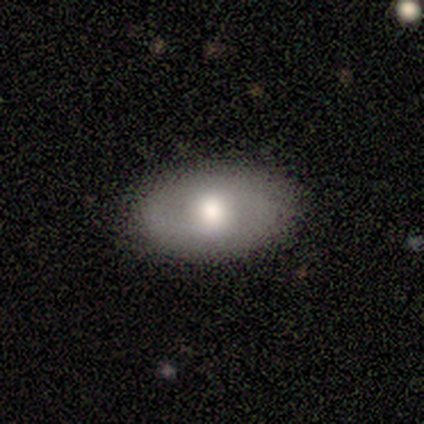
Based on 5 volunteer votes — smooth 40% (tied), featured or disk 40% (tied), star or artifact 20%. Down the decision tree: how rounded — in between (100%); merging — none (75%).